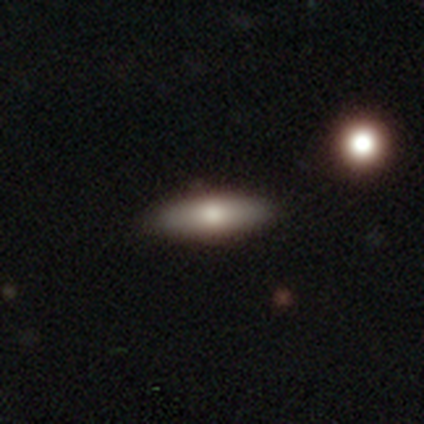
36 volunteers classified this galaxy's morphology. This is likely a smooth galaxy (72%). How rounded: likely cigar-shaped (62%). Merging: clearly none (91%).